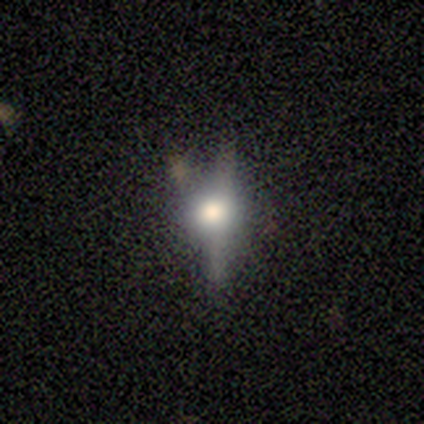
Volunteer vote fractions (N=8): A featured or disk galaxy (50%) viewed edge-on (75%) with a rounded central bulge (100%). Merging: none (60%).